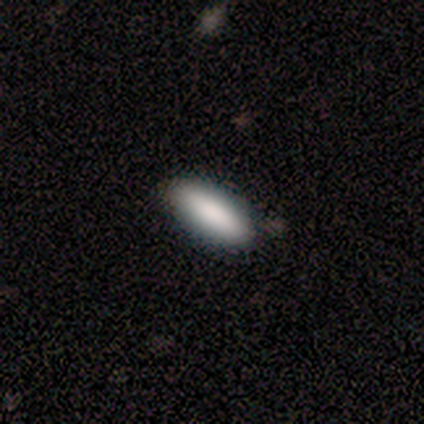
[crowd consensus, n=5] smooth 100%, featured or disk 0%, star or artifact 0%. Down the decision tree: how rounded — in between (60%); merging — none (100%).